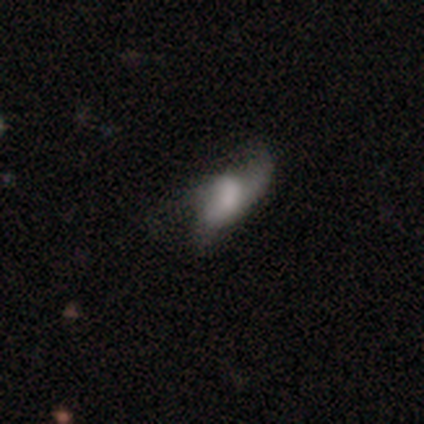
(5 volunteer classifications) Overall: smooth (80%). How rounded: in between (75%). Merging: minor disturbance (50%; none 25%).